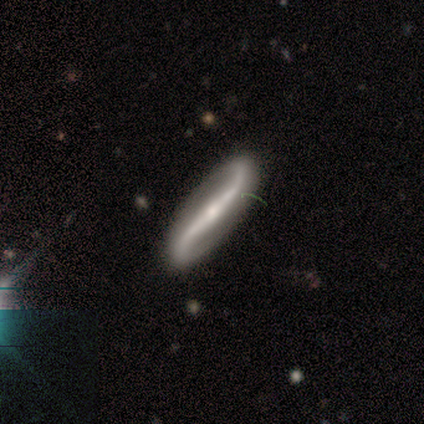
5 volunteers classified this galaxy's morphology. Q: Smooth or featured?
A: featured or disk (80%); runner-up: smooth (20%)
Q: Edge-on disk?
A: no (100%)
Q: Bar?
A: no (50%); runner-up: strong (25%)
Q: Spiral arms?
A: yes (75%); runner-up: no (25%)
Q: Spiral winding?
A: loose (100%)
Q: Spiral arm count?
A: 2 (100%)
Q: Bulge size?
A: small (100%)
Q: Merging?
A: none (100%)